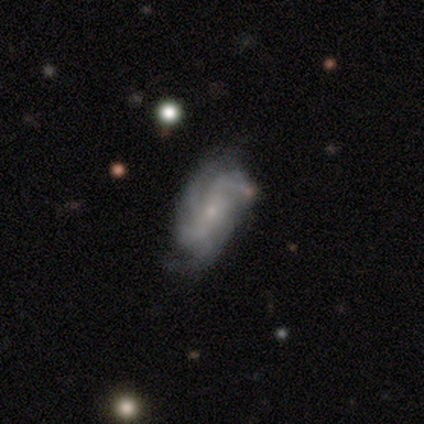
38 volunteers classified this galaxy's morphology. A featured or disk galaxy (82%) with no bar (55%), 4 (32%) medium (45%) spiral arms (100%) and a small central bulge (87%). Merging: none (38%).